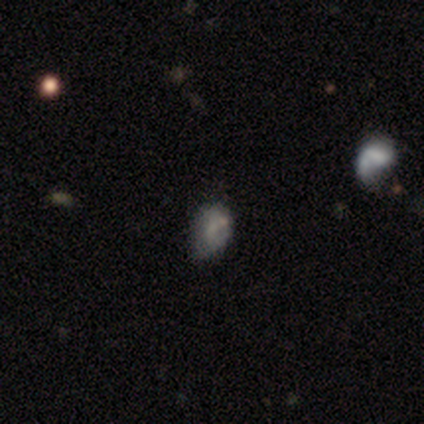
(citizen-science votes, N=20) Smooth or featured? 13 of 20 (65%) said smooth. How rounded? 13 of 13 (100%) said in between. Merging? 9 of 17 (53%) said minor disturbance.